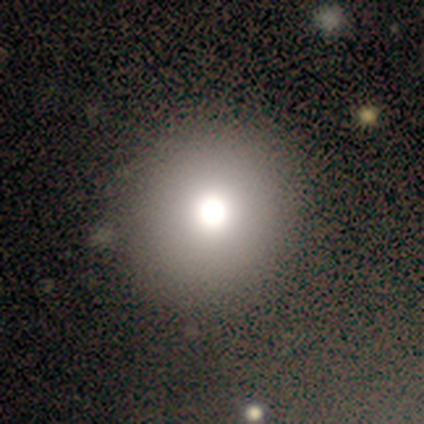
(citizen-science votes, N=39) Smooth or featured? smooth (72%)
How rounded? round (96%)
Merging? none (62%)